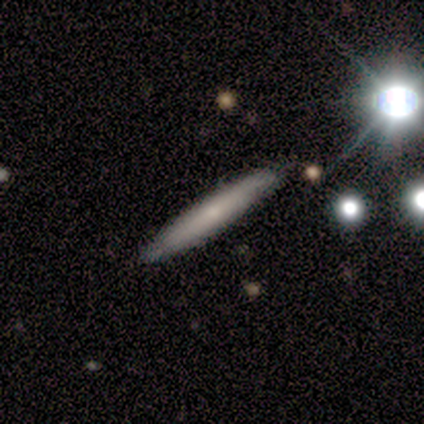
smooth 60%, featured or disk 40%, star or artifact 0%. Down the decision tree: how rounded — cigar-shaped (100%); merging — none (100%).